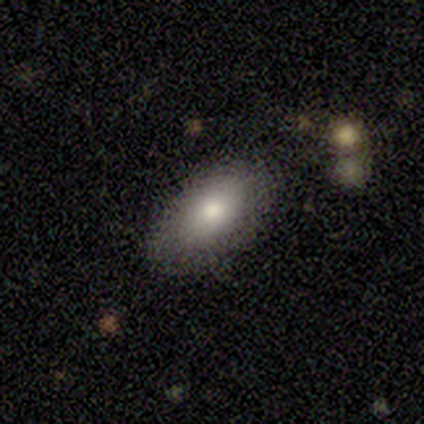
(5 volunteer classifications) Smooth or featured? smooth (100%)
How rounded? in between (80%)
Merging? none (100%)